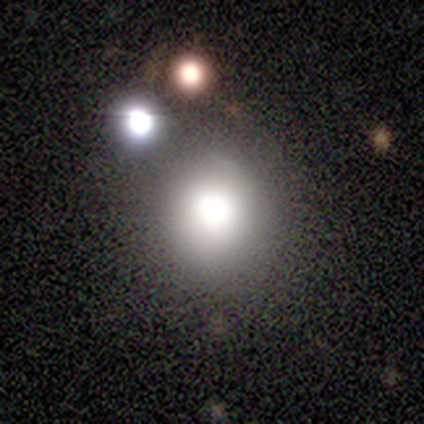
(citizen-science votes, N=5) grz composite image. It shows a smooth galaxy with no disk features (80%) that is round (100%). Merging: none (75%).